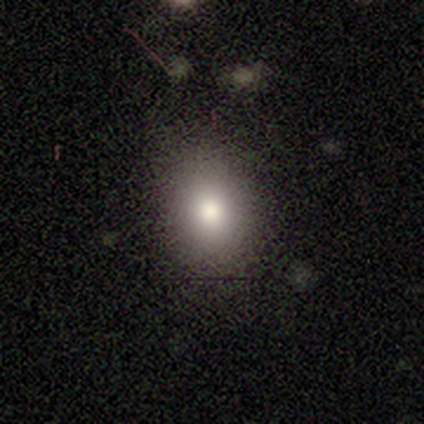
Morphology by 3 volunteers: Smooth or featured: star or artifact — 67% (smooth — 33%)